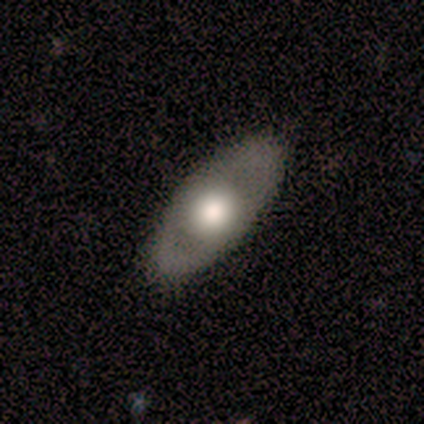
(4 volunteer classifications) A featured or disk galaxy (75%) with no bar (100%), no spiral arms (67%) and a large central bulge (67%).

Vote fractions:
- Smooth or featured? featured or disk: 75% / smooth: 25% / star or artifact: 0%
- Edge-on disk? no: 100% / yes: 0%
- Bar? no: 100% / strong: 0% / weak: 0%
- Spiral arms? no: 67% / yes: 33%
- Bulge size? large: 67% / dominant: 33% / moderate: 0% / small: 0% / none: 0%
- Merging? none: 75% / minor disturbance: 25% / major disturbance: 0% / merger: 0%